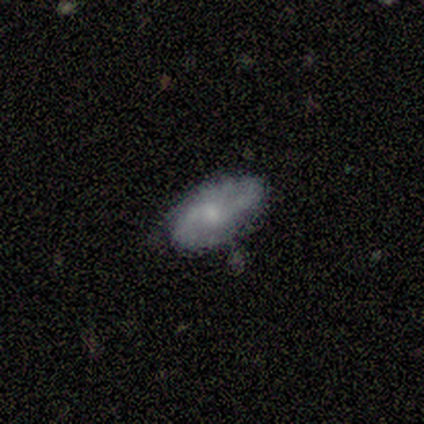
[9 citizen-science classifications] A featured or disk galaxy (67%) with no bar (83%), 2 (100%) tight (40%, tied with medium) spiral arms (83%) and a moderate central bulge (50%, tied with small).

Vote fractions:
- Smooth or featured? featured or disk: 67% / smooth: 33% / star or artifact: 0%
- Edge-on disk? no: 100% / yes: 0%
- Bar? no: 83% / weak: 17% / strong: 0%
- Spiral arms? yes: 83% / no: 17%
- Spiral winding? tight: 40% (tied) / medium: 40% (tied) / loose: 20%
- Spiral arm count? 2: 100% / 1: 0% / 3: 0% / 4: 0% / more than 4: 0% / can't tell: 0%
- Bulge size? moderate: 50% (tied) / small: 50% (tied) / dominant: 0% / large: 0% / none: 0%
- Merging? none: 89% / minor disturbance: 11% / major disturbance: 0% / merger: 0%